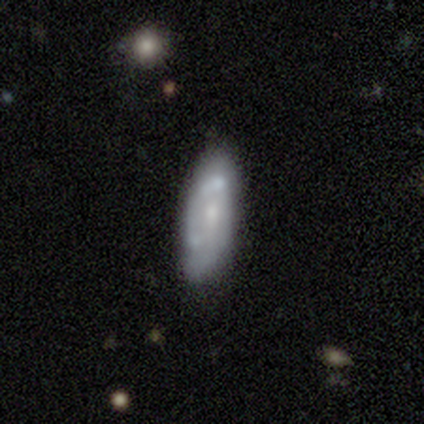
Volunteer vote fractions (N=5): Smooth or featured: featured or disk — 60% (smooth — 40%)
Edge-on disk: no — 100%
Bar: no — 100%
Spiral arms: no — 67% (yes — 33%)
Bulge size: small — 67% (none — 33%)
Merging: none — 40% (tied with minor disturbance — 40%)